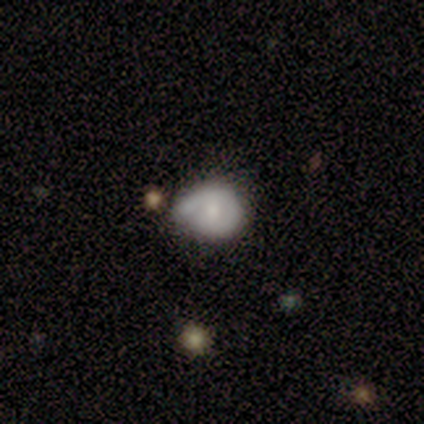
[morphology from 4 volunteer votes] Smooth or featured?
  - featured or disk: 50% *
  - smooth: 25%
  - star or artifact: 25%
Edge-on disk?
  - no: 100% *
  - yes: 0%
Bar?
  - weak: 50% * (tied)
  - no: 50% * (tied)
  - strong: 0%
Spiral arms?
  - yes: 100% *
  - no: 0%
Spiral winding?
  - medium: 50% * (tied)
  - loose: 50% * (tied)
  - tight: 0%
Spiral arm count?
  - 1: 100% *
  - 2: 0%
  - 3: 0%
  - 4: 0%
  - more than 4: 0%
  - can't tell: 0%
Bulge size?
  - large: 50% * (tied)
  - moderate: 50% * (tied)
  - dominant: 0%
  - small: 0%
  - none: 0%
Merging?
  - minor disturbance: 67% *
  - none: 33%
  - major disturbance: 0%
  - merger: 0%